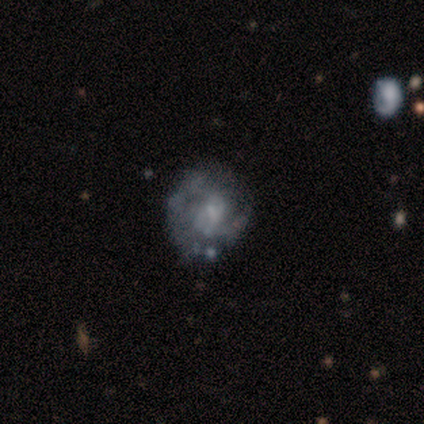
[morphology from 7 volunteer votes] A featured or disk galaxy (86%) with no bar (50%), 2 (75%) medium (50%, tied with loose) spiral arms (67%) and a small central bulge (50%).

Vote fractions:
- Smooth or featured? featured or disk: 86% / smooth: 14% / star or artifact: 0%
- Edge-on disk? no: 100% / yes: 0%
- Bar? no: 50% / weak: 33% / strong: 17%
- Spiral arms? yes: 67% / no: 33%
- Spiral winding? medium: 50% (tied) / loose: 50% (tied) / tight: 0%
- Spiral arm count? 2: 75% / can't tell: 25% / 1: 0% / 3: 0% / 4: 0% / more than 4: 0%
- Bulge size? small: 50% / none: 33% / moderate: 17% / dominant: 0% / large: 0%
- Merging? none: 71% / major disturbance: 29% / minor disturbance: 0% / merger: 0%